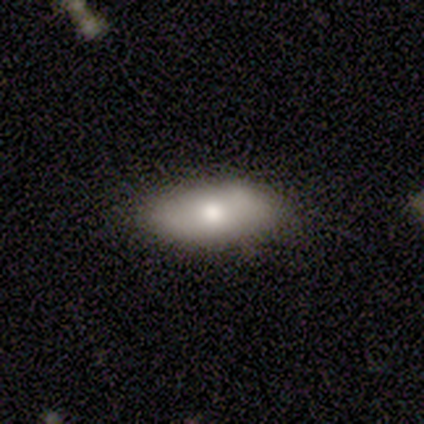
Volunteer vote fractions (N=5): Morphology: type=smooth (80%); roundness=in between (75%); merging=none (75%).